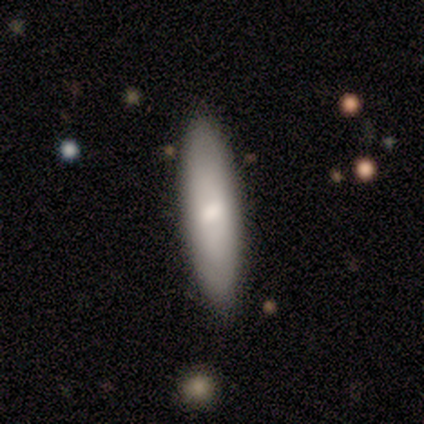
smooth 100%, featured or disk 0%, star or artifact 0%. Down the decision tree: how rounded — cigar-shaped (100%); merging — none (100%).